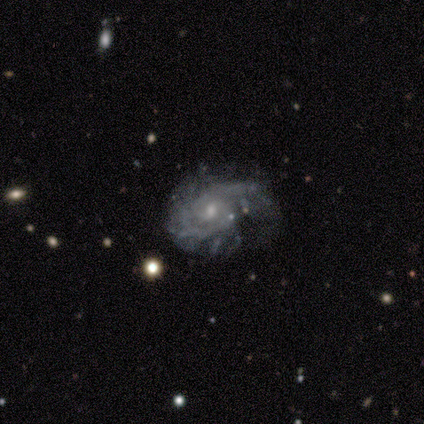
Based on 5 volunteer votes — A featured or disk galaxy (100%) with no bar (60%), tight (60%) spiral arms (100%) and a small central bulge (60%). Merging: major disturbance (40%).